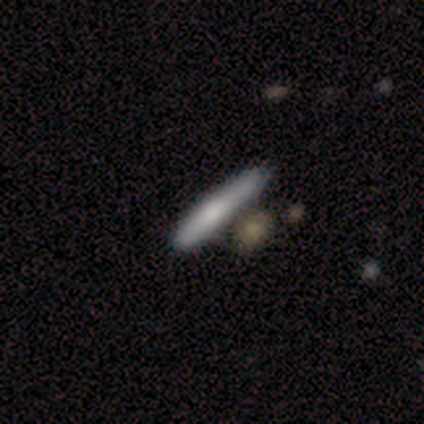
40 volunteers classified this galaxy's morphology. This is likely a smooth galaxy (60%). How rounded: clearly cigar-shaped (92%). Merging: likely none (60%).